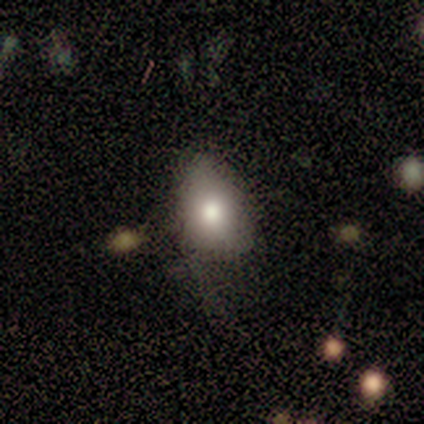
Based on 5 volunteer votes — Smooth or featured? smooth (60%)
How rounded? in between (67%)
Merging? none (50%)